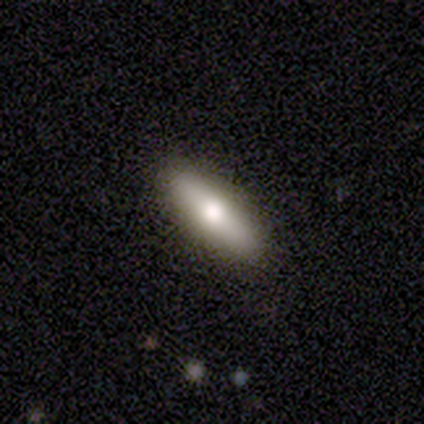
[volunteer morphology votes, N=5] This appears to be a smooth galaxy with no disk features (80%) that is cigar-shaped (75%). Merging: none (100%).